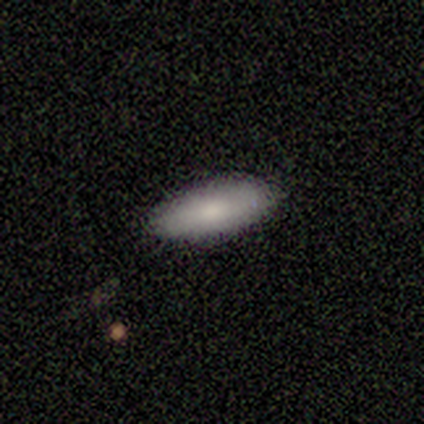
Q: Smooth or featured?
A: smooth (83%); runner-up: star or artifact (17%)
Q: How rounded?
A: in between (60%); runner-up: cigar-shaped (40%)
Q: Merging?
A: none (80%); runner-up: minor disturbance (20%)